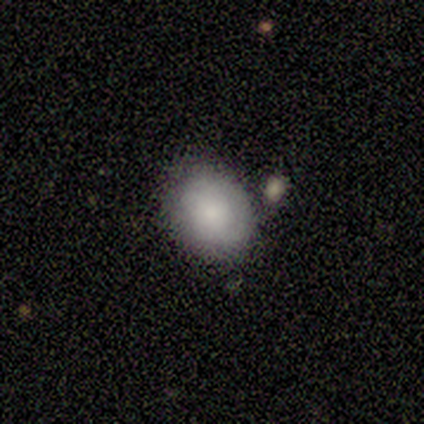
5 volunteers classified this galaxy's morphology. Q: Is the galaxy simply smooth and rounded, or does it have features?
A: smooth — 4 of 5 (80%).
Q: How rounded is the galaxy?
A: in between — 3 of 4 (75%).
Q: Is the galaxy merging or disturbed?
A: none — 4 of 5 (80%).